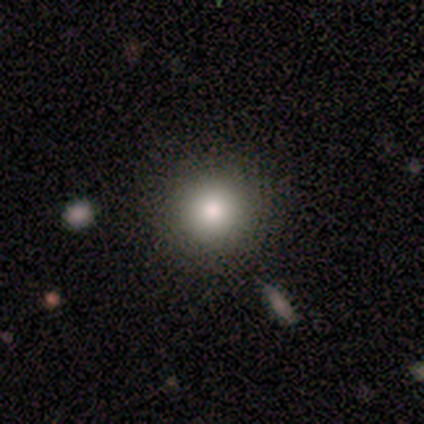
This is likely a smooth galaxy (77%). How rounded: clearly round (100%). Merging: clearly none (91%).